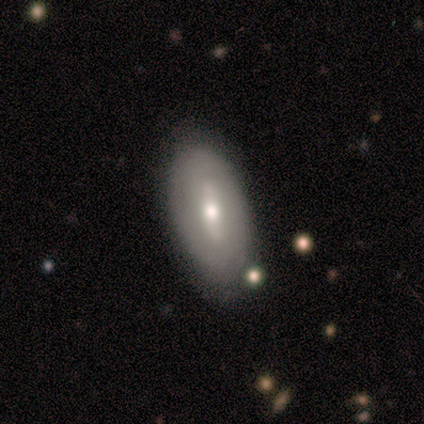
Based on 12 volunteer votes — Smooth or featured?
  - featured or disk: 67% *
  - smooth: 33%
  - star or artifact: 0%
Edge-on disk?
  - no: 100% *
  - yes: 0%
Bar?
  - strong: 38% * (tied)
  - no: 38% * (tied)
  - weak: 25%
Spiral arms?
  - no: 75% *
  - yes: 25%
Bulge size?
  - moderate: 75% *
  - small: 25%
  - dominant: 0%
  - large: 0%
  - none: 0%
Merging?
  - none: 92% *
  - major disturbance: 8%
  - minor disturbance: 0%
  - merger: 0%